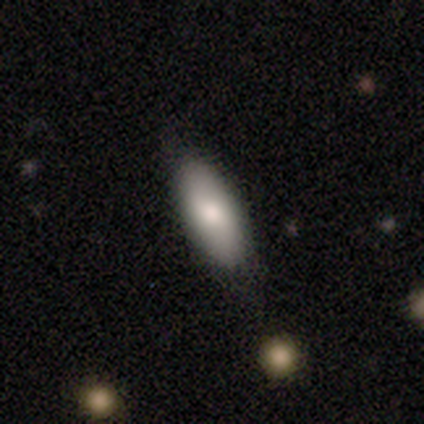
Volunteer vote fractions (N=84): Smooth or featured: smooth — 70% (featured or disk — 18%)
How rounded: in between — 68% (cigar-shaped — 32%)
Merging: none — 77% (minor disturbance — 20%)